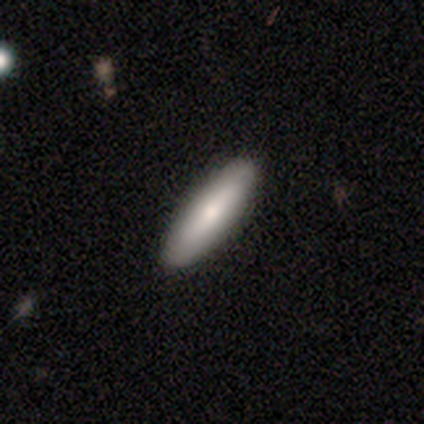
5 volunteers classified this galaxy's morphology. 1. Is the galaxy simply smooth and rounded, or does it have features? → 80% smooth, 20% featured or disk, 0% star or artifact.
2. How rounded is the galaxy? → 75% in between, 25% cigar-shaped, 0% round.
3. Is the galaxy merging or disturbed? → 100% none, 0% minor disturbance, 0% major disturbance, 0% merger.